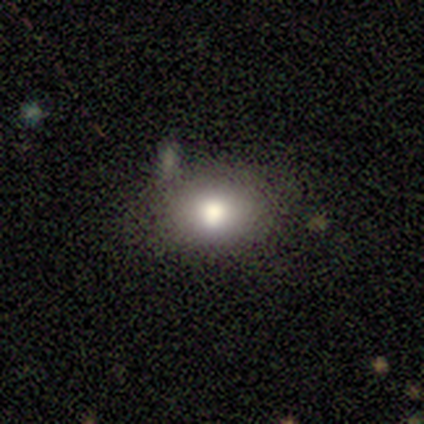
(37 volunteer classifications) A smooth galaxy with no disk features (81%) that is in between round and cigar-shaped (70%).

Vote fractions:
- Smooth or featured? smooth: 81% / featured or disk: 14% / star or artifact: 5%
- How rounded? in between: 70% / round: 30% / cigar-shaped: 0%
- Merging? none: 63% / minor disturbance: 26% / merger: 11% / major disturbance: 0%